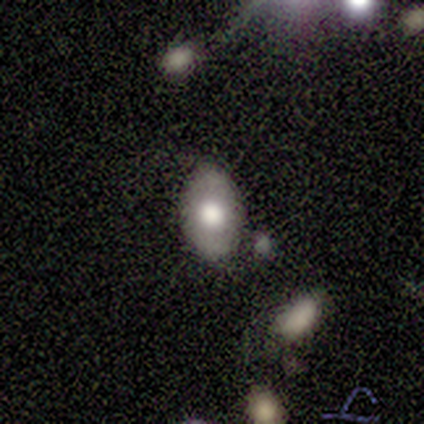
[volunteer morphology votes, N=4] A smooth galaxy with no disk features (75%) that is in between round and cigar-shaped (100%). Merging: none (75%).